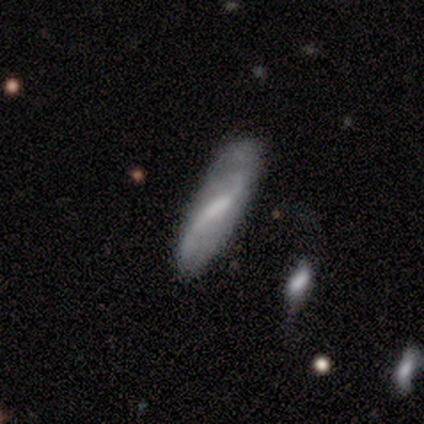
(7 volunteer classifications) This is likely a featured or disk galaxy (71%). It is clearly not viewed edge-on (80%). Bar: possibly weak (50%). Spiral arm pattern: clearly yes (100%). Spiral arm count: clearly 2 (100%). Spiral winding: likely loose (75%). Central bulge: possibly small (50%). Merging: likely none (67%).